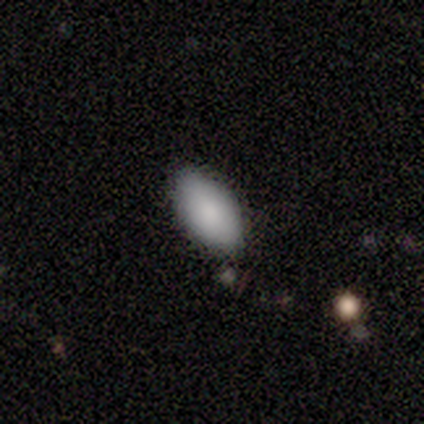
smooth-or-featured: smooth: 100% | featured or disk: 0% | star or artifact: 0%
  how-rounded: in between: 100% | round: 0% | cigar-shaped: 0%
  merging: none: 80% | merger: 20% | minor disturbance: 0% | major disturbance: 0%